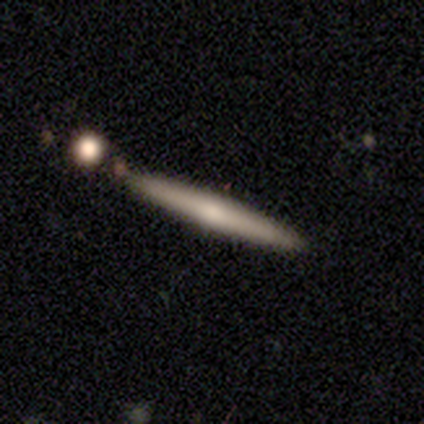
smooth_or_featured: featured or disk (p=0.54) [alt: smooth p=0.46]
disk_edge_on: yes (p=1.00)
edge_on_bulge: none (p=0.71) [alt: rounded p=0.29]
merging: none (p=0.92) [alt: minor disturbance p=0.08]